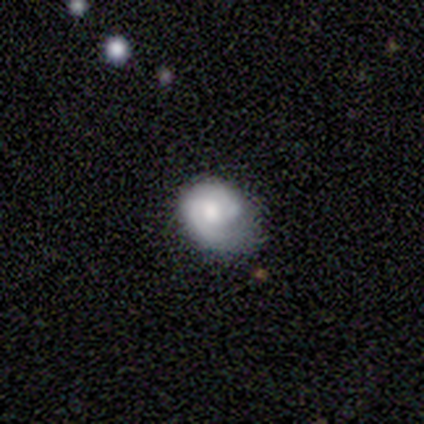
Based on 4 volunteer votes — A smooth galaxy with no disk features (50%, tied with featured or disk) that is in between round and cigar-shaped (100%). Merging: none (50%, tied with minor disturbance).